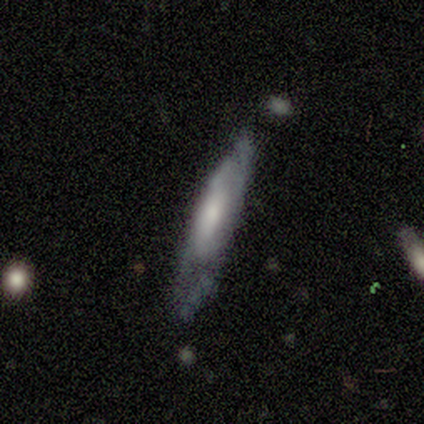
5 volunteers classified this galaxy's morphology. A featured or disk galaxy (80%) with no bar (67%), 2 (50%, tied with can't tell) tight (50%, tied with loose) spiral arms (67%) and a dominant central bulge (33%, tied with moderate and small).

Vote fractions:
- Smooth or featured? featured or disk: 80% / smooth: 20% / star or artifact: 0%
- Edge-on disk? no: 75% / yes: 25%
- Bar? no: 67% / weak: 33% / strong: 0%
- Spiral arms? yes: 67% / no: 33%
- Spiral winding? tight: 50% (tied) / loose: 50% (tied) / medium: 0%
- Spiral arm count? 2: 50% (tied) / can't tell: 50% (tied) / 1: 0% / 3: 0% / 4: 0% / more than 4: 0%
- Bulge size? dominant: 33% (tied) / moderate: 33% (tied) / small: 33% (tied) / large: 0% / none: 0%
- Merging? none: 80% / minor disturbance: 20% / major disturbance: 0% / merger: 0%